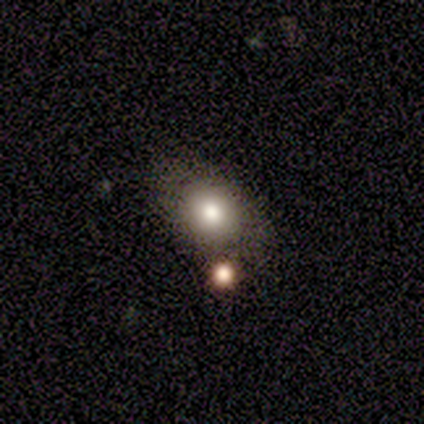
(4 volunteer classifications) Overall: smooth (50%; featured or disk 25%). How rounded: round (50%, tied with in between). Merging: none (67%; major disturbance 33%).